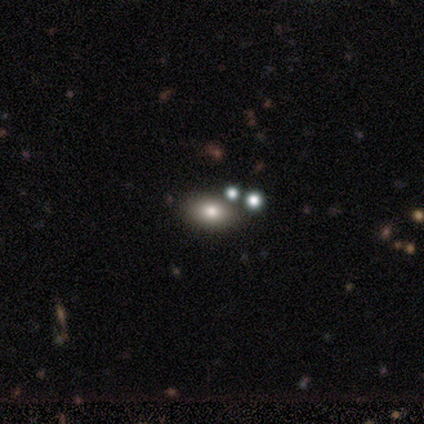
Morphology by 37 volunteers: Smooth or featured: smooth — 57% (featured or disk — 32%)
How rounded: in between — 76% (round — 24%)
Merging: none — 73% (minor disturbance — 12%)